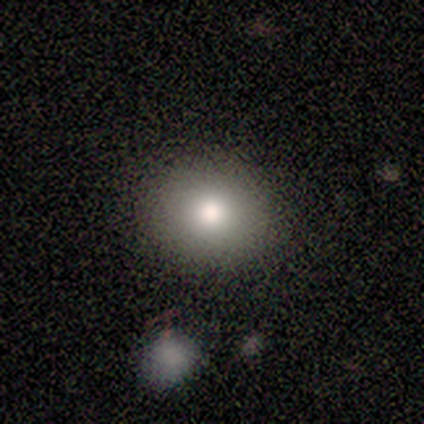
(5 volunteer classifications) This appears to be a smooth galaxy with no disk features (100%) that is round (80%). Merging: none (100%).